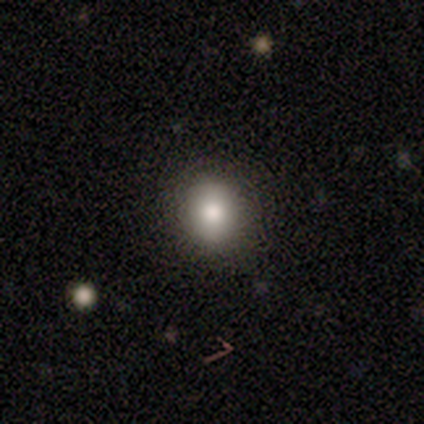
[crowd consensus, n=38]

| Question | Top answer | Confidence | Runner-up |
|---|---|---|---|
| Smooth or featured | smooth | 82% | star or artifact (11%) |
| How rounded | round | 77% | in between (23%) |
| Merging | none | 94% | minor disturbance (6%) |